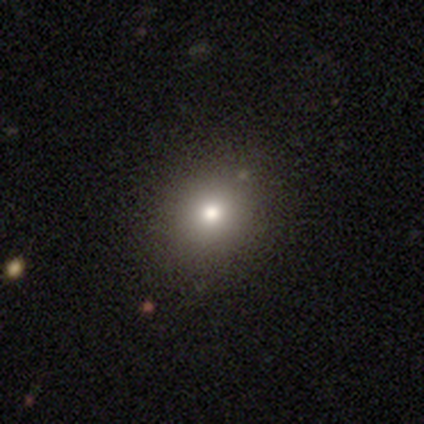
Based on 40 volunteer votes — smooth 70%, star or artifact 20%, featured or disk 10%. Down the decision tree: how rounded — round (79%); merging — none (91%).